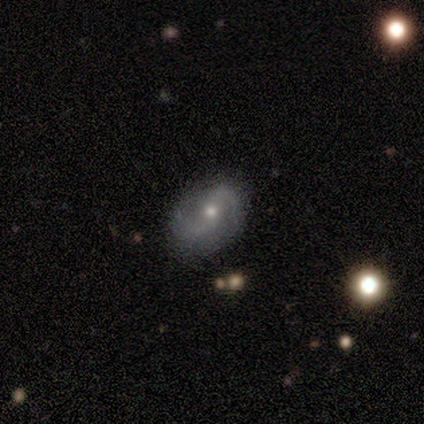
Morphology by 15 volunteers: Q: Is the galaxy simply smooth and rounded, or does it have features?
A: featured or disk — 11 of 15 (73%).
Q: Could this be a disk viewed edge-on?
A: no — 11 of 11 (100%).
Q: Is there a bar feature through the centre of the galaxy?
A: no — 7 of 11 (64%).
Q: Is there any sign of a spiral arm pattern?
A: yes — 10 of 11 (91%).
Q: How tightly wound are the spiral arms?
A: medium — 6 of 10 (60%).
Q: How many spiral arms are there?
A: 2 — 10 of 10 (100%).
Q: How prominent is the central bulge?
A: small — 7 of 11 (64%).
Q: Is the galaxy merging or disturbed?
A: none — 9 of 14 (64%).